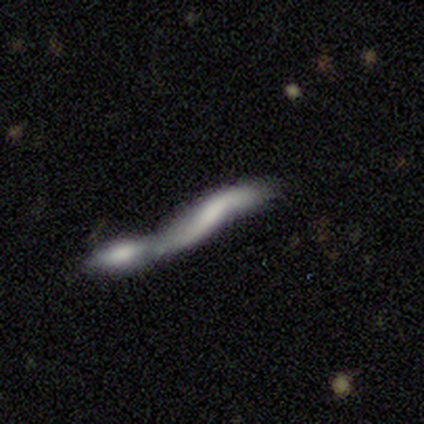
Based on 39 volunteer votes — Overall: featured or disk (51%; smooth 46%). Edge-on disk: no (55%; yes 45%). Bar: no (45%; strong 27%). Spiral arms: yes (55%; no 45%). Spiral arm count: 2 (83%). Spiral winding: loose (100%). Bulge size: none (64%). Merging: merger (79%).